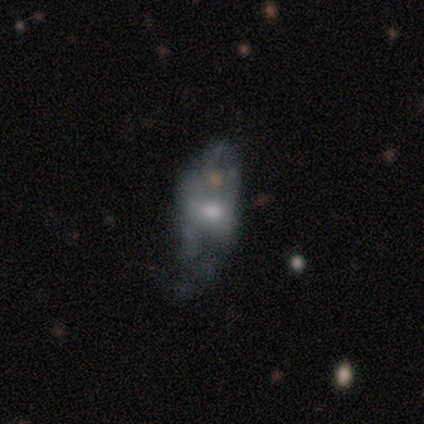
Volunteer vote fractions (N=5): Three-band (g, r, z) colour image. It shows a smooth galaxy with no disk features (60%) that is in between round and cigar-shaped (67%). Merging: none (80%).